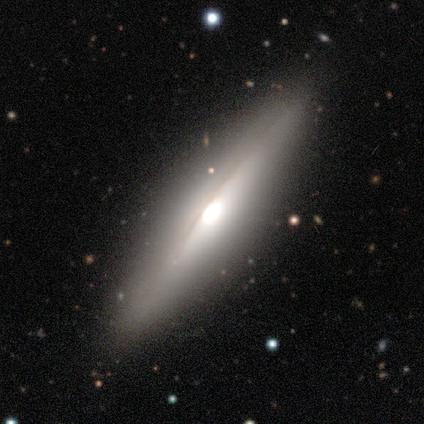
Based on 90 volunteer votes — featured or disk 71%, smooth 24%, star or artifact 4%. Down the decision tree: edge-on disk — yes (92%); edge-on bulge — rounded (78%); merging — none (84%).